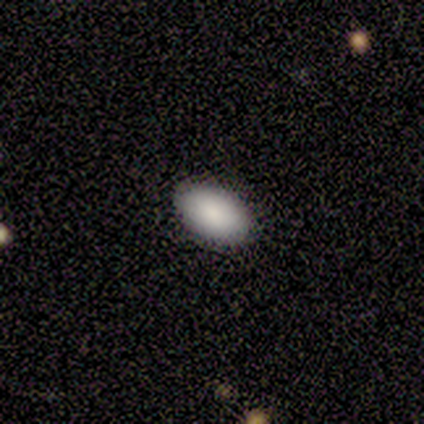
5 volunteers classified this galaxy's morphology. This is clearly a smooth galaxy (100%). How rounded: clearly in between (100%). Merging: clearly none (80%).